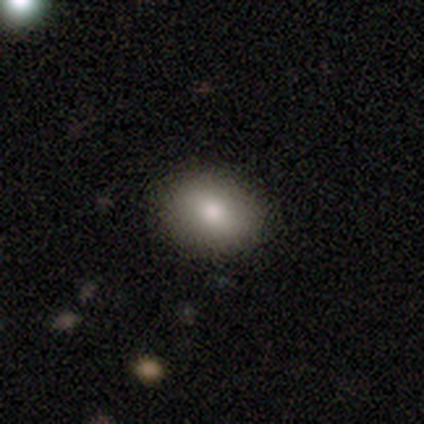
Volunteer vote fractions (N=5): This is clearly a smooth galaxy (80%). How rounded: clearly in between (100%). Merging: clearly none (80%).